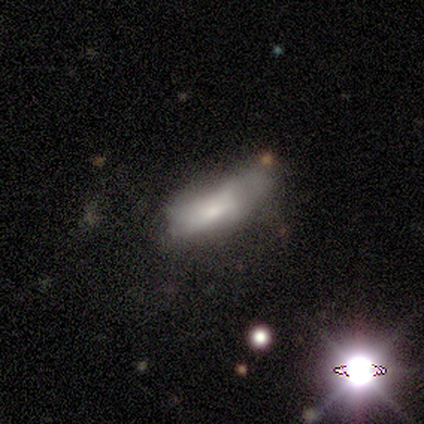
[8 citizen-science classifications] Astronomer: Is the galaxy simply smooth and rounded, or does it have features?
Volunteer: smooth — 50%, tied with featured or disk at 50%.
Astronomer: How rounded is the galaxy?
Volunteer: cigar-shaped — 75%.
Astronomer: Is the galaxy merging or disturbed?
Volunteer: none — 38%, tied with minor disturbance at 38%.